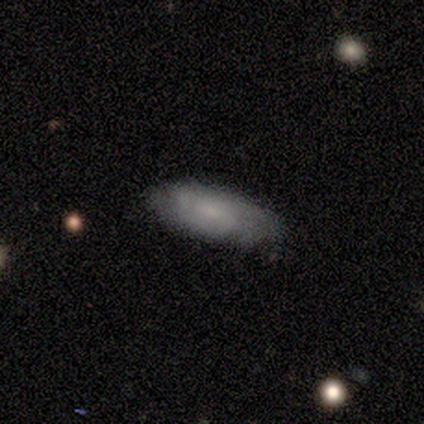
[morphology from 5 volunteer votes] Volunteers were most divided on "smooth or featured": smooth: 60%, featured or disk: 40%, star or artifact: 0%. More confident: how rounded — in between (100%); merging — none (60%).